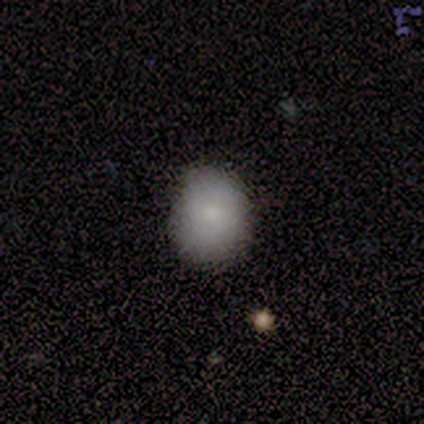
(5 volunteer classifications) Smooth or featured?
  - smooth: 100% *
  - featured or disk: 0%
  - star or artifact: 0%
How rounded?
  - round: 60% *
  - in between: 40%
  - cigar-shaped: 0%
Merging?
  - none: 60% *
  - minor disturbance: 40%
  - major disturbance: 0%
  - merger: 0%